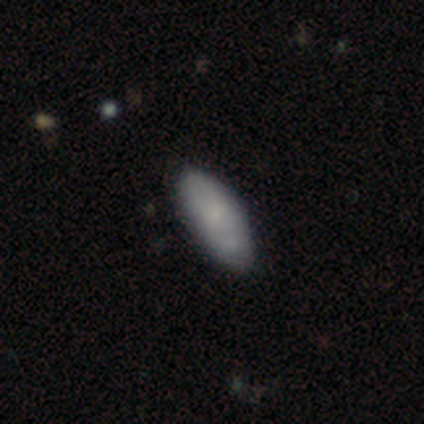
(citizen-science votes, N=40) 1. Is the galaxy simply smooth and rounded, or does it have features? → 80% smooth, 12% featured or disk, 8% star or artifact.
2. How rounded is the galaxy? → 81% in between, 12% cigar-shaped, 6% round.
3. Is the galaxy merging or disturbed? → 68% none, 27% minor disturbance, 3% major disturbance, 3% merger.